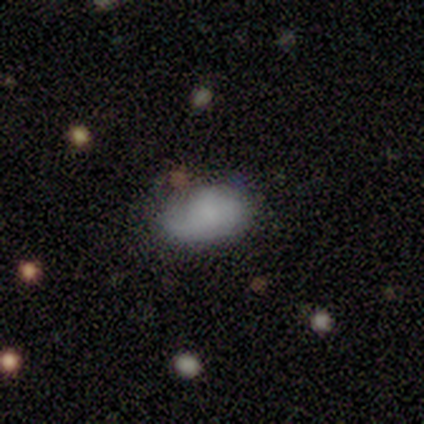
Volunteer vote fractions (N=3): smooth_or_featured: smooth (p=0.67) [alt: star or artifact p=0.33]
how_rounded: in between (p=1.00)
merging: none (p=0.50) [tied with: minor disturbance p=0.50]